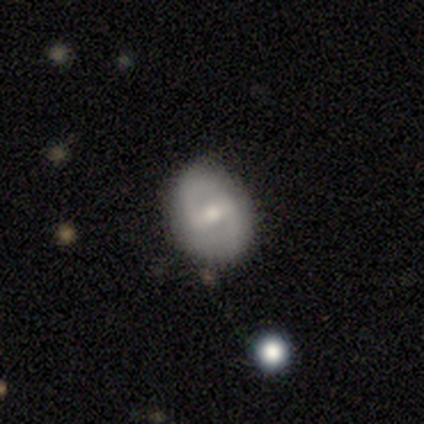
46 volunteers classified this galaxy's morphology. Overall: smooth (48%; featured or disk 39%). How rounded: in between (55%; round 45%). Merging: none (92%).